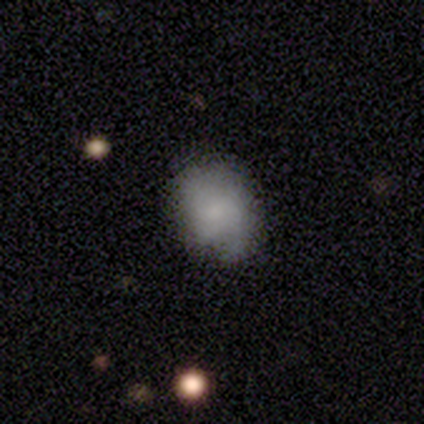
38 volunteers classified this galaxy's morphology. Q: Smooth or featured?
A: smooth (89%); runner-up: featured or disk (11%)
Q: How rounded?
A: round (50%); tied with: in between (50%)
Q: Merging?
A: none (68%); runner-up: minor disturbance (21%)